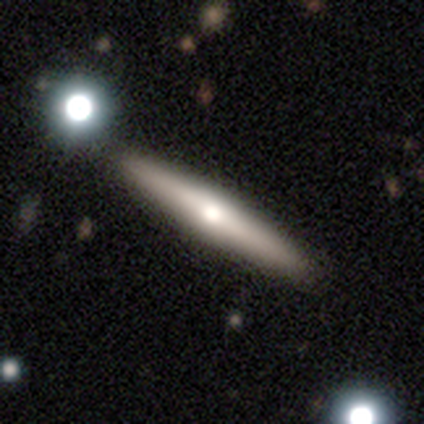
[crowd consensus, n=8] Smooth or featured? 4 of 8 (50%, tied with featured or disk) said smooth. How rounded? 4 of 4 (100%) said cigar-shaped. Merging? 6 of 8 (75%) said none.